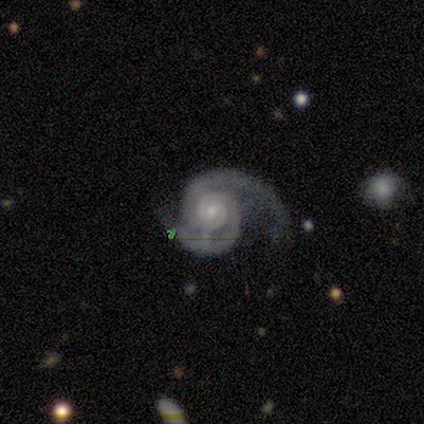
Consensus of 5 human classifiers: Smooth or featured? featured or disk (100%)
Edge-on disk? no (100%)
Bar? no (80%)
Spiral arms? yes (100%)
Spiral winding? tight (60%)
Spiral arm count? 2 (100%)
Bulge size? small (60%)
Merging? none (40%, tied with minor disturbance)